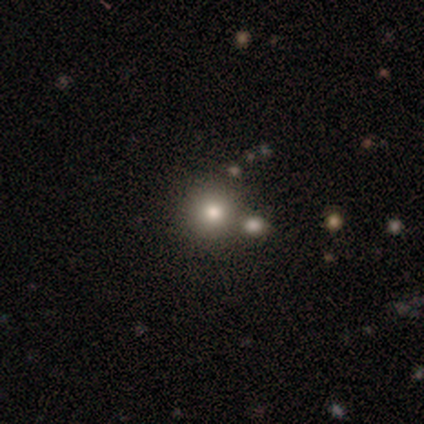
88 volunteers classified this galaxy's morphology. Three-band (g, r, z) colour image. It shows a smooth galaxy with no disk features (64%) that is round (98%). Merging: none (77%).